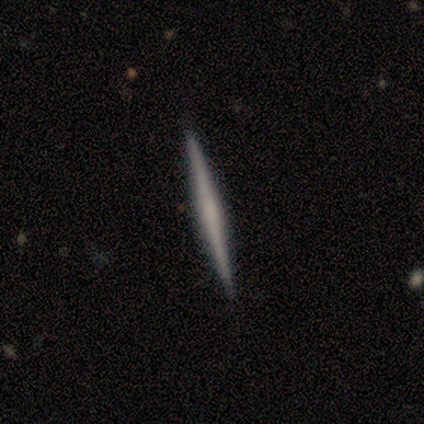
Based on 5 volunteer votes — smooth_or_featured: featured or disk (p=0.80) [alt: smooth p=0.20]
disk_edge_on: yes (p=1.00)
edge_on_bulge: none (p=0.50) [alt: boxy p=0.25]
merging: none (p=1.00)